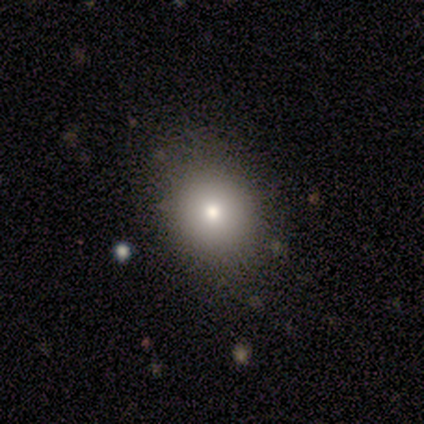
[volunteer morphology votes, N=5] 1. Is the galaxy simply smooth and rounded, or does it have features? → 80% smooth, 20% star or artifact, 0% featured or disk.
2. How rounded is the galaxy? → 75% round, 25% in between, 0% cigar-shaped.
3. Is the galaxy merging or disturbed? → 75% none, 25% minor disturbance, 0% major disturbance, 0% merger.